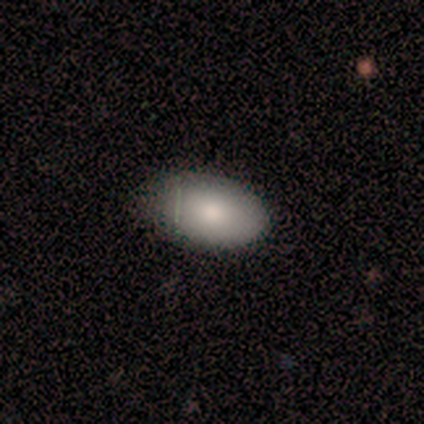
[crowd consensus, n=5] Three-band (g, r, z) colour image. It shows a smooth galaxy with no disk features (80%) that is in between round and cigar-shaped (75%). Merging: none (80%).